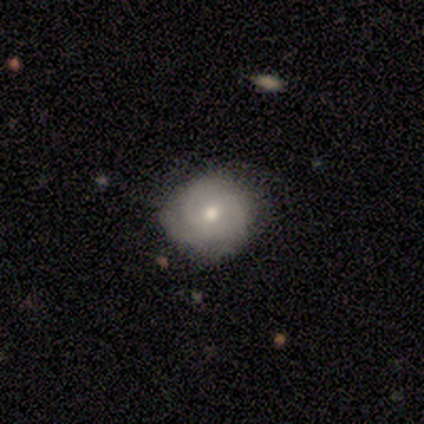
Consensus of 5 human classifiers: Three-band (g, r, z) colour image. It shows a featured or disk galaxy (80%) with no bar (50%), 3 (75%) tight (50%) spiral arms (100%) and a moderate central bulge (50%, tied with small). Merging: none (80%).